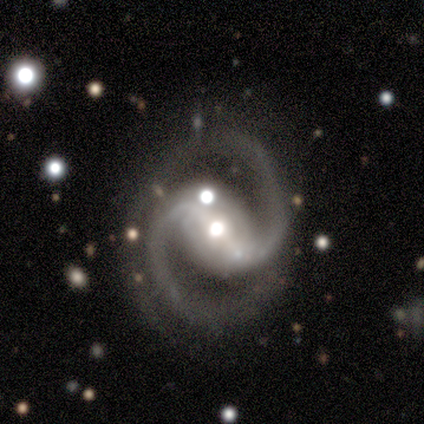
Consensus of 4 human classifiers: Smooth or featured?
  - featured or disk: 100% *
  - smooth: 0%
  - star or artifact: 0%
Edge-on disk?
  - no: 100% *
  - yes: 0%
Bar?
  - strong: 75% *
  - weak: 25%
  - no: 0%
Spiral arms?
  - yes: 100% *
  - no: 0%
Spiral winding?
  - medium: 75% *
  - loose: 25%
  - tight: 0%
Spiral arm count?
  - 2: 75% *
  - 3: 25%
  - 1: 0%
  - 4: 0%
  - more than 4: 0%
  - can't tell: 0%
Bulge size?
  - moderate: 75% *
  - large: 25%
  - dominant: 0%
  - small: 0%
  - none: 0%
Merging?
  - none: 75% *
  - minor disturbance: 25%
  - major disturbance: 0%
  - merger: 0%